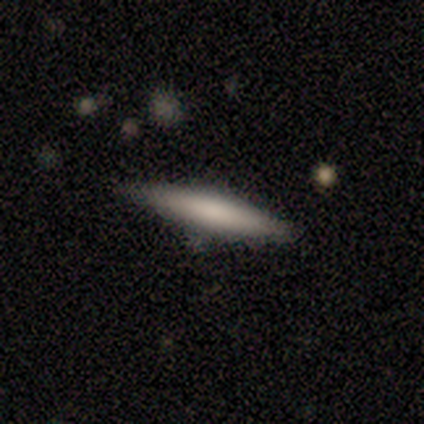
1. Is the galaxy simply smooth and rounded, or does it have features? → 58% smooth, 42% featured or disk, 0% star or artifact.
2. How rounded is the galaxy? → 86% cigar-shaped, 14% in between, 0% round.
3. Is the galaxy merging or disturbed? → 92% none, 8% minor disturbance, 0% major disturbance, 0% merger.